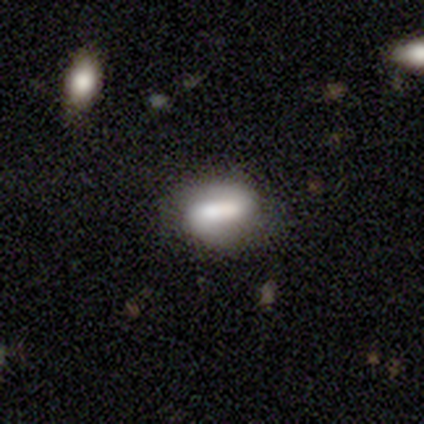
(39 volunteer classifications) smooth_or_featured: smooth (p=0.49) [alt: featured or disk p=0.36]
how_rounded: in between (p=0.79) [alt: round p=0.11]
merging: none (p=0.70) [alt: minor disturbance p=0.15]